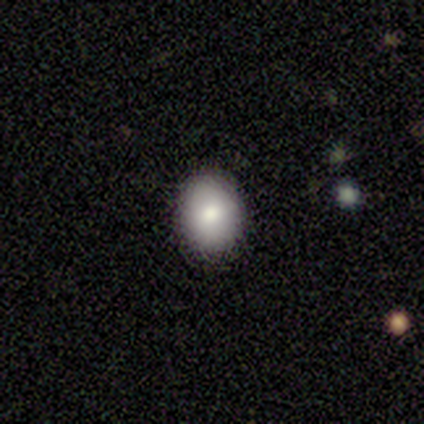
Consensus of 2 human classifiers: smooth-or-featured: smooth: 100% | featured or disk: 0% | star or artifact: 0%
  how-rounded: in between: 100% | round: 0% | cigar-shaped: 0%
  merging: none: 100% | minor disturbance: 0% | major disturbance: 0% | merger: 0%